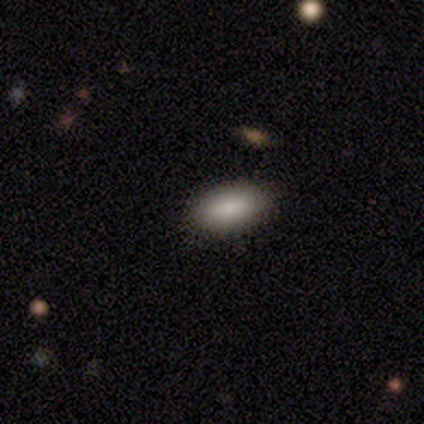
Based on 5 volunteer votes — Smooth or featured? smooth (100%)
How rounded? in between (100%)
Merging? none (100%)